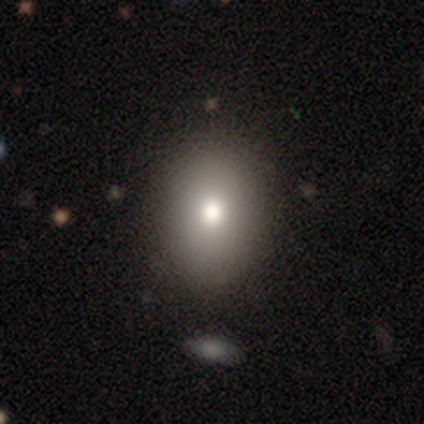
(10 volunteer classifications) Q: Smooth or featured?
A: smooth (70%); runner-up: featured or disk (20%)
Q: How rounded?
A: in between (71%); runner-up: round (29%)
Q: Merging?
A: none (100%)